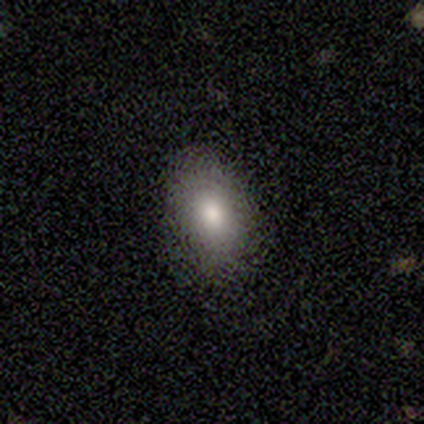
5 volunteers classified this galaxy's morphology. smooth_or_featured: smooth (p=0.40) [tied with: featured or disk p=0.40]
how_rounded: in between (p=1.00)
merging: none (p=1.00)